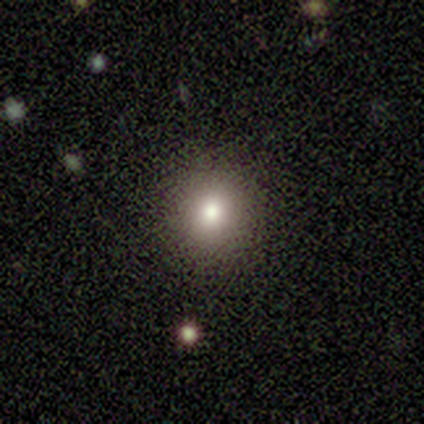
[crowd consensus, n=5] smooth-or-featured: smooth: 60% | featured or disk: 20% | star or artifact: 20%
  how-rounded: round: 100% | in between: 0% | cigar-shaped: 0%
  merging: none: 100% | minor disturbance: 0% | major disturbance: 0% | merger: 0%